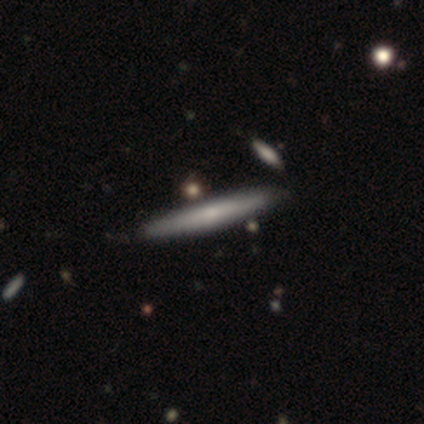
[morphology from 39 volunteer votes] This is possibly a smooth galaxy (54%). How rounded: clearly cigar-shaped (95%). Merging: likely none (67%).